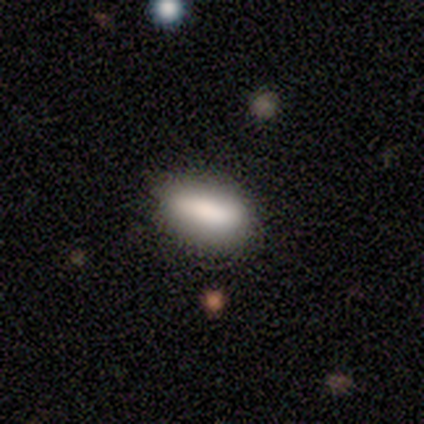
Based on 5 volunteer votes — Smooth or featured: smooth — 60% (featured or disk — 20%)
How rounded: in between — 100%
Merging: minor disturbance — 50% (none — 25%)